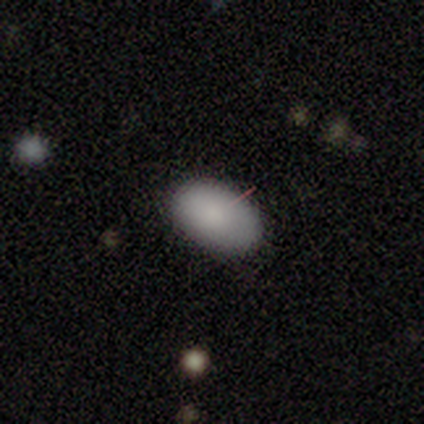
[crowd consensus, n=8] Overall: smooth (75%). How rounded: in between (100%). Merging: none (100%).